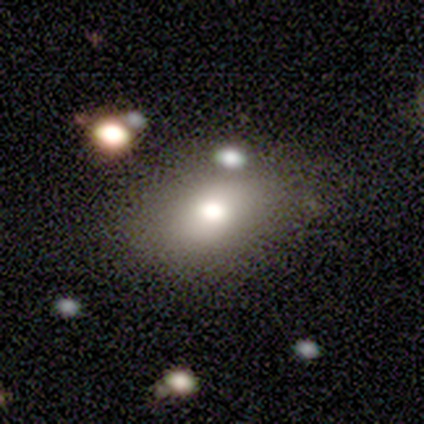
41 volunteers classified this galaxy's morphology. Smooth or featured? smooth (78%)
How rounded? in between (81%)
Merging? none (69%)